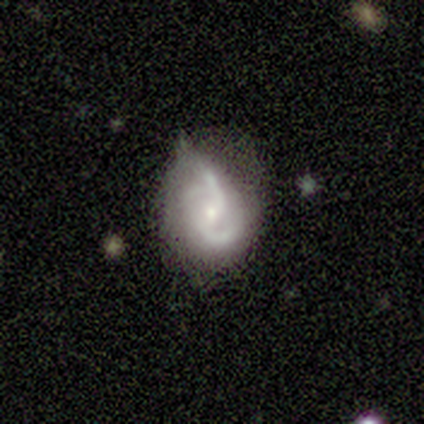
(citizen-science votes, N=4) Q: Smooth or featured?
A: featured or disk (50%); runner-up: smooth (25%)
Q: Edge-on disk?
A: no (100%)
Q: Bar?
A: strong (50%); tied with: weak (50%)
Q: Spiral arms?
A: yes (100%)
Q: Spiral winding?
A: medium (100%)
Q: Spiral arm count?
A: 2 (100%)
Q: Bulge size?
A: small (100%)
Q: Merging?
A: none (100%)